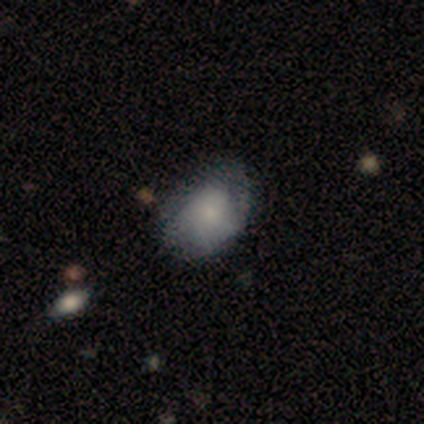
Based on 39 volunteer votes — Smooth or featured?
  - smooth: 64% *
  - featured or disk: 23%
  - star or artifact: 13%
How rounded?
  - in between: 76% *
  - round: 24%
  - cigar-shaped: 0%
Merging?
  - none: 62% *
  - minor disturbance: 32%
  - major disturbance: 6%
  - merger: 0%